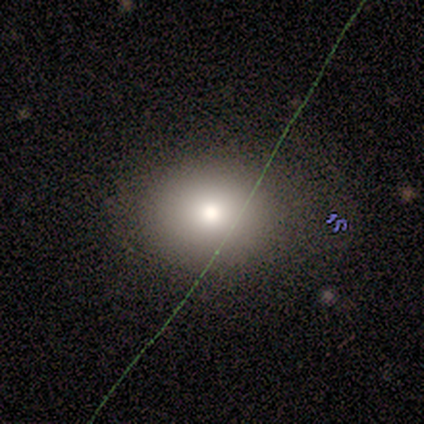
smooth-or-featured: smooth: 100% | featured or disk: 0% | star or artifact: 0%
  how-rounded: round: 60% | in between: 40% | cigar-shaped: 0%
  merging: none: 80% | minor disturbance: 20% | major disturbance: 0% | merger: 0%